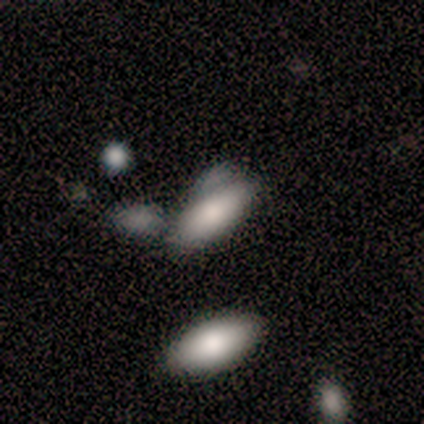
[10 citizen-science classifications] This is clearly a smooth galaxy (80%). How rounded: clearly in between (88%). Merging: possibly minor disturbance (56%).